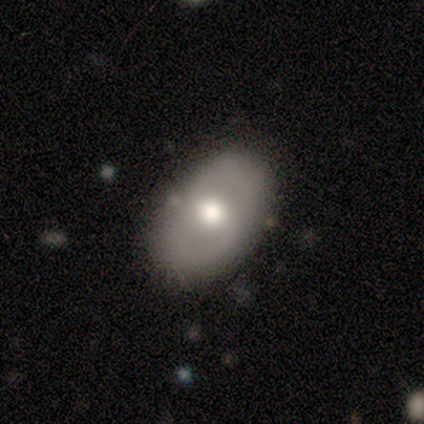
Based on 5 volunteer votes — Q: Smooth or featured?
A: featured or disk (80%); runner-up: smooth (20%)
Q: Edge-on disk?
A: no (75%); runner-up: yes (25%)
Q: Bar?
A: no (67%); runner-up: strong (33%)
Q: Spiral arms?
A: no (67%); runner-up: yes (33%)
Q: Bulge size?
A: moderate (100%)
Q: Merging?
A: none (60%); runner-up: minor disturbance (40%)